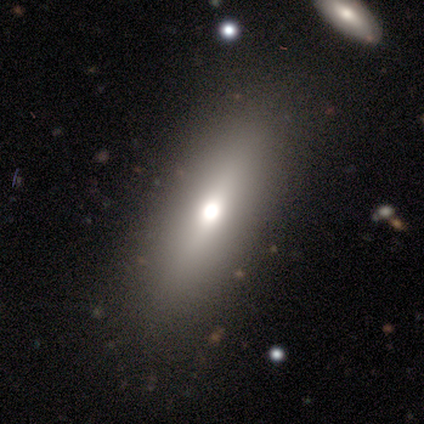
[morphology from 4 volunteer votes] Overall: smooth (75%). How rounded: in between (100%). Merging: none (100%).